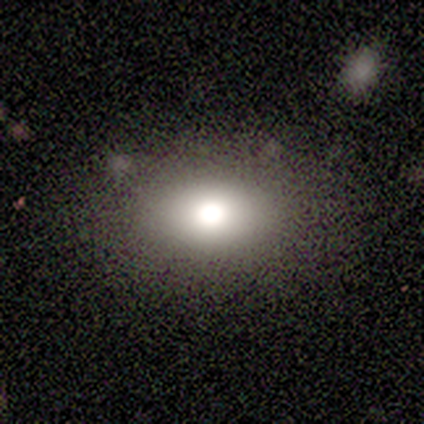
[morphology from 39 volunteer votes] type=smooth (69%); roundness=in between (74%); merging=none (85%).